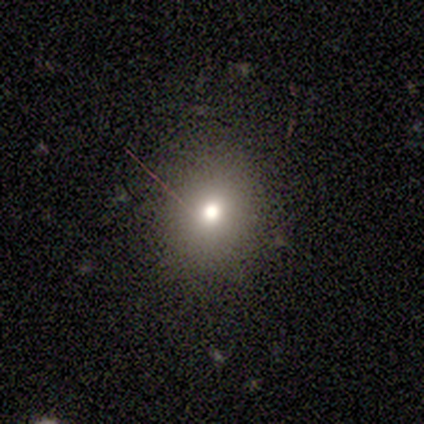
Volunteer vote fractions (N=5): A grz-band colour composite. It shows a smooth galaxy with no disk features (80%) that is round (50%, tied with in between). Merging: none (75%).